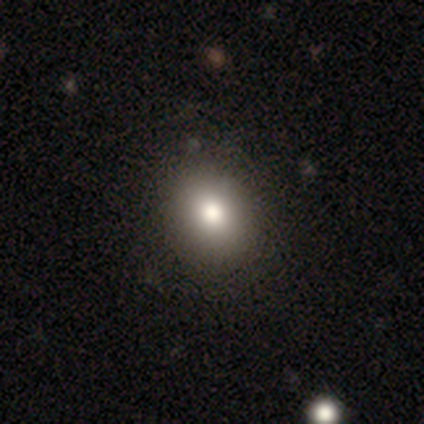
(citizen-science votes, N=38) Morphology: type=smooth (79%); roundness=round (73%); merging=none (88%).